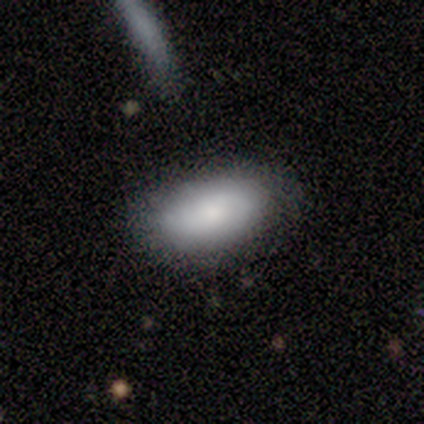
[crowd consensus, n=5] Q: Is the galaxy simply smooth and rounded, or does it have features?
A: smooth — 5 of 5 (100%).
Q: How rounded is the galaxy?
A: in between — 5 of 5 (100%).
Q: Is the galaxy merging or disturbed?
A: none — 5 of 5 (100%).